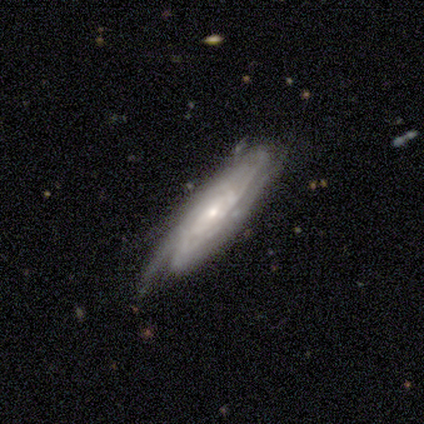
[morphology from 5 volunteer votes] Q: Smooth or featured?
A: featured or disk (100%)
Q: Edge-on disk?
A: no (60%); runner-up: yes (40%)
Q: Bar?
A: strong (33%); tied with: weak (33%); no (33%)
Q: Spiral arms?
A: yes (100%)
Q: Spiral winding?
A: tight (67%); runner-up: medium (33%)
Q: Spiral arm count?
A: 4 (33%); tied with: more than 4 (33%); can't tell (33%)
Q: Bulge size?
A: small (67%); runner-up: moderate (33%)
Q: Merging?
A: none (100%)